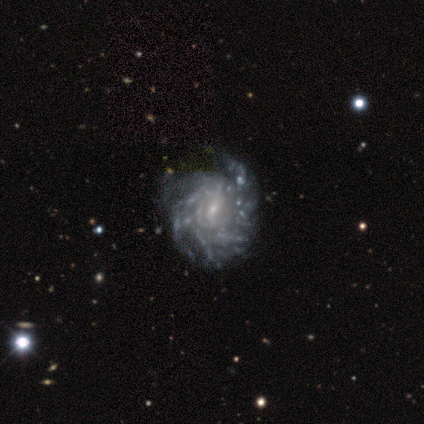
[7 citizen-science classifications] Overall: featured or disk (71%). Edge-on disk: no (100%). Bar: weak (80%). Spiral arms: yes (100%). Spiral arm count: more than 4 (80%). Spiral winding: tight (100%). Bulge size: small (80%). Merging: none (83%).